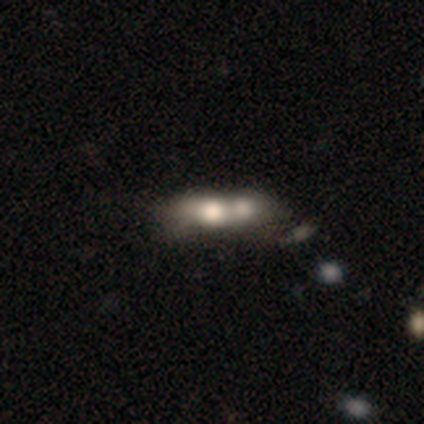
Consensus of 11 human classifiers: Volunteers were most divided on "smooth or featured" (2-way tie): smooth: 45%, star or artifact: 45%, featured or disk: 9%. More confident: merging — merger (100%); how rounded — cigar-shaped (60%).